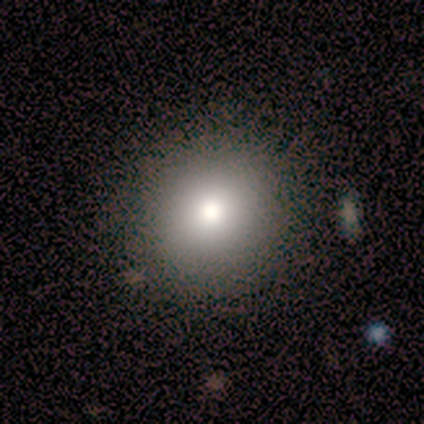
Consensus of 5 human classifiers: Morphology: type=smooth (100%); roundness=round (100%); merging=none (100%).